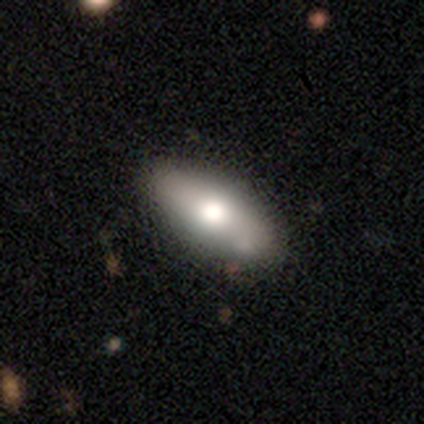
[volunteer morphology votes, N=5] Smooth or featured? smooth (40%, tied with featured or disk)
How rounded? in between (50%, tied with cigar-shaped)
Merging? none (50%)